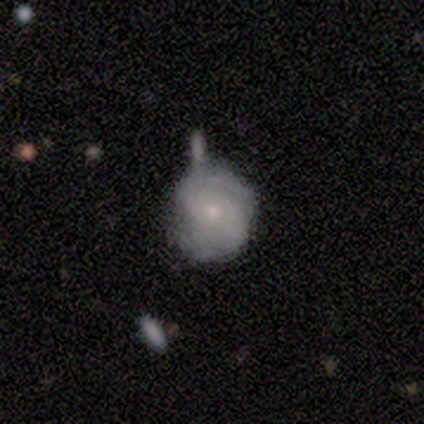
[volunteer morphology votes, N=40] Smooth or featured: featured or disk — 62% (smooth — 30%)
Edge-on disk: no — 100%
Bar: no — 72% (weak — 24%)
Spiral arms: yes — 76% (no — 24%)
Spiral winding: tight — 63% (medium — 32%)
Spiral arm count: 2 — 53% (can't tell — 37%)
Bulge size: small — 56% (moderate — 24%)
Merging: none — 57% (minor disturbance — 24%)